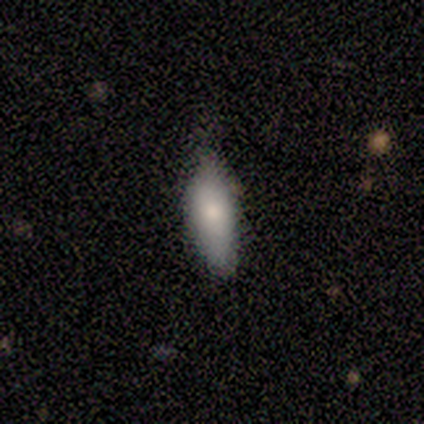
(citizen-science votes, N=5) Smooth or featured?
  - smooth: 80% *
  - star or artifact: 20%
  - featured or disk: 0%
How rounded?
  - in between: 50% * (tied)
  - cigar-shaped: 50% * (tied)
  - round: 0%
Merging?
  - none: 75% *
  - major disturbance: 25%
  - minor disturbance: 0%
  - merger: 0%